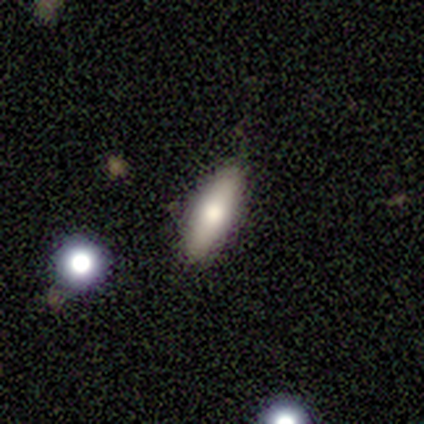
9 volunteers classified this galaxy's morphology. smooth 67%, featured or disk 33%, star or artifact 0%. Down the decision tree: how rounded — in between (67%); merging — none (89%).